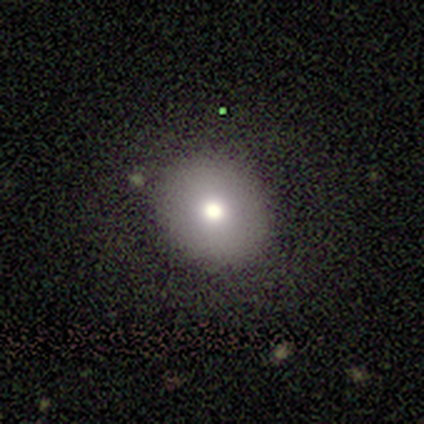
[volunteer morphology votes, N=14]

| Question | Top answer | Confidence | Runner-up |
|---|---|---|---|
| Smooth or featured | smooth | 64% | featured or disk (21%) |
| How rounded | round | 78% | in between (22%) |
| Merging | none | 83% | minor disturbance (17%) |